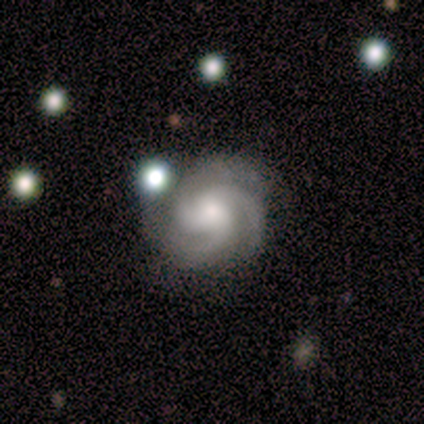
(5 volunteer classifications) A featured or disk galaxy (100%) with no bar (60%), 3 (100%) medium (60%) spiral arms (100%) and a moderate central bulge (60%).

Vote fractions:
- Smooth or featured? featured or disk: 100% / smooth: 0% / star or artifact: 0%
- Edge-on disk? no: 100% / yes: 0%
- Bar? no: 60% / strong: 20% / weak: 20%
- Spiral arms? yes: 100% / no: 0%
- Spiral winding? medium: 60% / tight: 40% / loose: 0%
- Spiral arm count? 3: 100% / 1: 0% / 2: 0% / 4: 0% / more than 4: 0% / can't tell: 0%
- Bulge size? moderate: 60% / small: 20% / none: 20% / dominant: 0% / large: 0%
- Merging? none: 80% / minor disturbance: 20% / major disturbance: 0% / merger: 0%